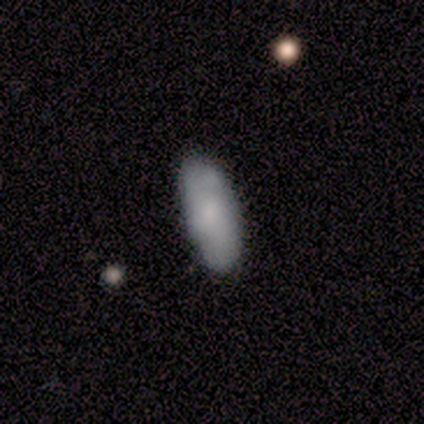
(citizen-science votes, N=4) smooth_or_featured: smooth (p=0.75) [alt: star or artifact p=0.25]
how_rounded: in between (p=1.00)
merging: none (p=1.00)